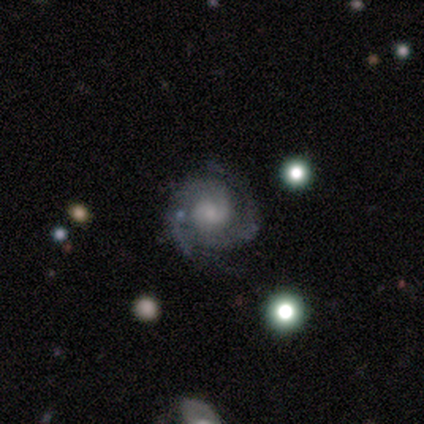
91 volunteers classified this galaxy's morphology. Smooth or featured?
  - featured or disk: 90% *
  - smooth: 7%
  - star or artifact: 3%
Edge-on disk?
  - no: 96% *
  - yes: 4%
Bar?
  - no: 63% *
  - weak: 28%
  - strong: 9%
Spiral arms?
  - yes: 100% *
  - no: 0%
Spiral winding?
  - tight: 49% *
  - medium: 44%
  - loose: 6%
Spiral arm count?
  - 2: 63% *
  - 3: 19%
  - can't tell: 13%
  - 4: 5%
  - 1: 0%
  - more than 4: 0%
Bulge size?
  - small: 46% *
  - moderate: 28%
  - none: 15%
  - large: 11%
  - dominant: 0%
Merging?
  - none: 77% *
  - minor disturbance: 17%
  - major disturbance: 3%
  - merger: 2%